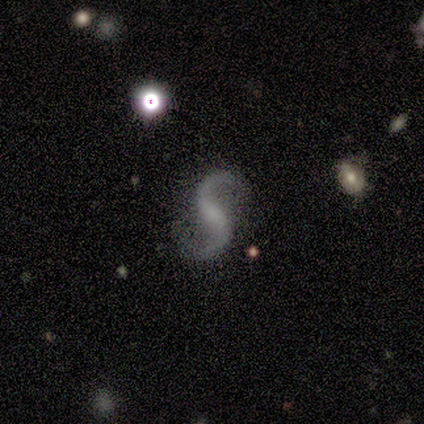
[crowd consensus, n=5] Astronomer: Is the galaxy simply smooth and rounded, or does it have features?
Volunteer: featured or disk — 80%.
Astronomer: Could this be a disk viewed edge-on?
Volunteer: no — 100%.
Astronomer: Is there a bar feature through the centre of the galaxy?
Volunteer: no — 75%.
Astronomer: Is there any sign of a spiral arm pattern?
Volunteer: yes — 100%.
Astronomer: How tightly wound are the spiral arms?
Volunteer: loose — 100%.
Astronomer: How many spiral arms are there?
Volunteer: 2 — 100%.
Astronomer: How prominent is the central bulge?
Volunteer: small — 50%.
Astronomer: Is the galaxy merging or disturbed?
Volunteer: none — 75%.